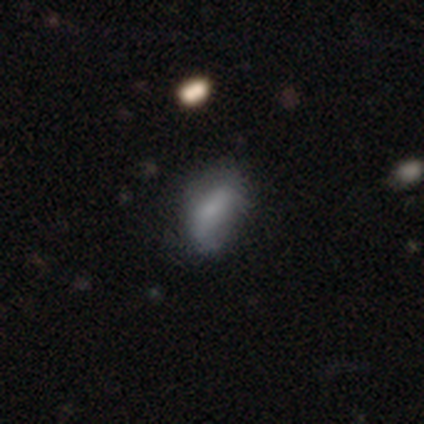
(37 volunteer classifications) Smooth or featured? 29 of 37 (78%) said smooth. How rounded? 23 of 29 (79%) said in between. Merging? 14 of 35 (40%) said none.